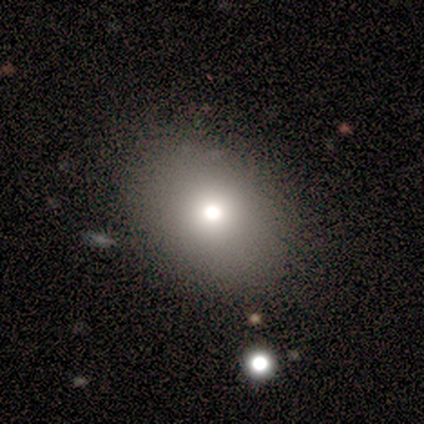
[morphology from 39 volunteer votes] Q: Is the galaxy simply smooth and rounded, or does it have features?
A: smooth — 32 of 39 (82%).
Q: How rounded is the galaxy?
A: in between — 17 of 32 (53%).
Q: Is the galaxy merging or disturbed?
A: none — 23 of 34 (68%).